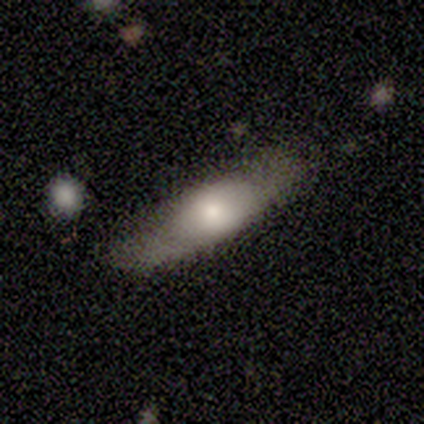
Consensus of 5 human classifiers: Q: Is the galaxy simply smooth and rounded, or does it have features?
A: smooth — 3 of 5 (60%).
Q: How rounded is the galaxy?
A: cigar-shaped — 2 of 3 (67%).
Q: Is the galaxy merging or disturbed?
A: none — 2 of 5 (40%, tied with minor disturbance).